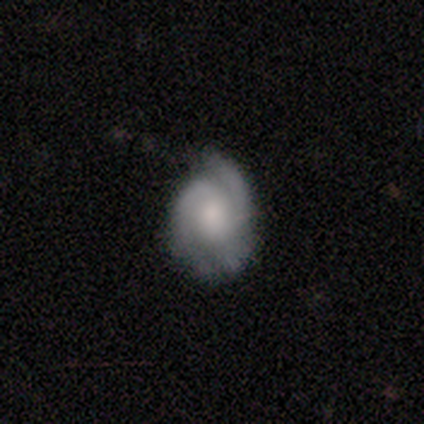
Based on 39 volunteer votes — Smooth or featured? 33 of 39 (85%) said featured or disk. Edge-on disk? 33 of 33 (100%) said no. Bar? 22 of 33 (67%) said no. Spiral arms? 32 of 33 (97%) said yes. Spiral winding? 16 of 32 (50%) said tight. Spiral arm count? 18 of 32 (56%) said 2. Bulge size? 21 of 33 (64%) said moderate. Merging? 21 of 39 (54%) said none.